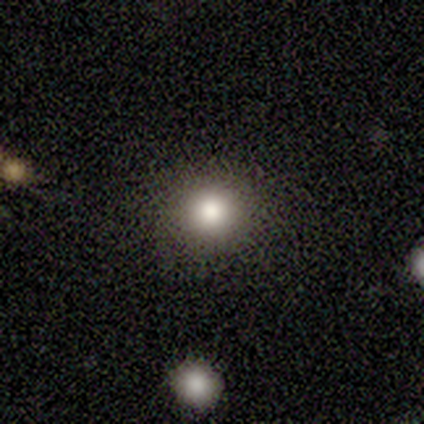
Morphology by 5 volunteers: This appears to be a smooth galaxy with no disk features (100%) that is round (100%). Merging: none (60%).